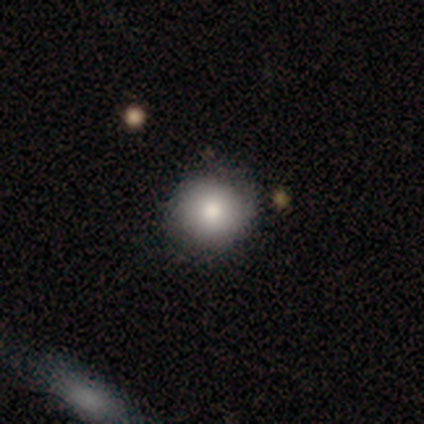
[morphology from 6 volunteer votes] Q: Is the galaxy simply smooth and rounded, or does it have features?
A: smooth — 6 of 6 (100%).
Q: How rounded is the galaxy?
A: round — 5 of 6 (83%).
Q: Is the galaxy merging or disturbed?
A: none — 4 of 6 (67%).